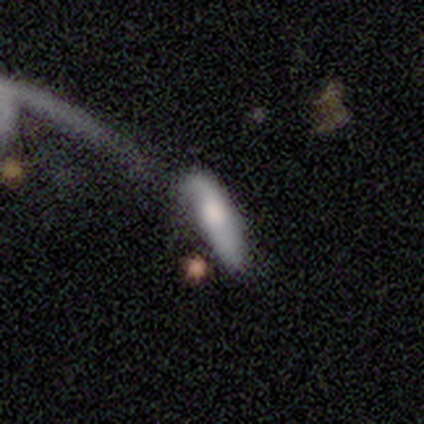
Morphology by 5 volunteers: smooth 100%, featured or disk 0%, star or artifact 0%. Down the decision tree: how rounded — cigar-shaped (60%); merging — none (40%, tied with major disturbance).